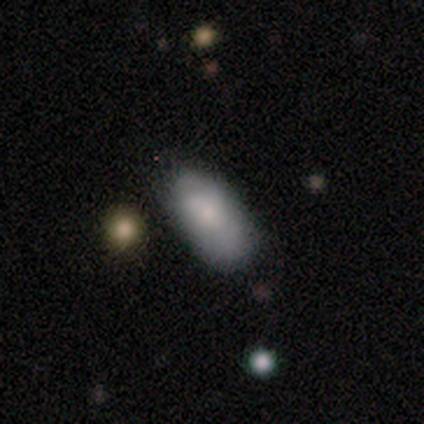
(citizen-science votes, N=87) Smooth or featured?
  - smooth: 76% *
  - featured or disk: 20%
  - star or artifact: 5%
How rounded?
  - in between: 97% *
  - round: 2%
  - cigar-shaped: 2%
Merging?
  - none: 65% *
  - minor disturbance: 29%
  - merger: 4%
  - major disturbance: 2%